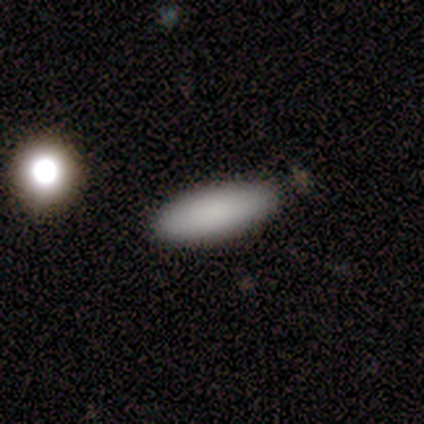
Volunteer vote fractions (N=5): Smooth or featured: smooth — 80% (featured or disk — 20%)
How rounded: in between — 75% (cigar-shaped — 25%)
Merging: none — 60% (minor disturbance — 40%)